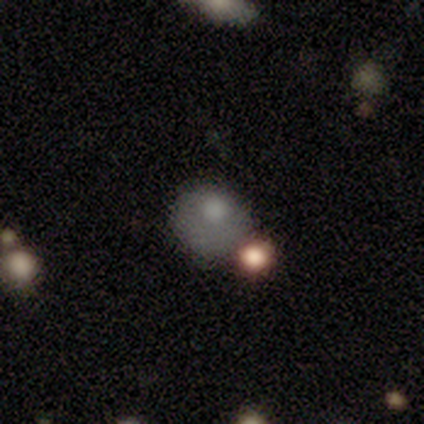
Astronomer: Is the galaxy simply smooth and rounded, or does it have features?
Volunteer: smooth — 66%.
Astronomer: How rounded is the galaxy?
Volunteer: round — 72%.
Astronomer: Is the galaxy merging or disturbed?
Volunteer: none — 44% (runner-up: minor disturbance, 21%).